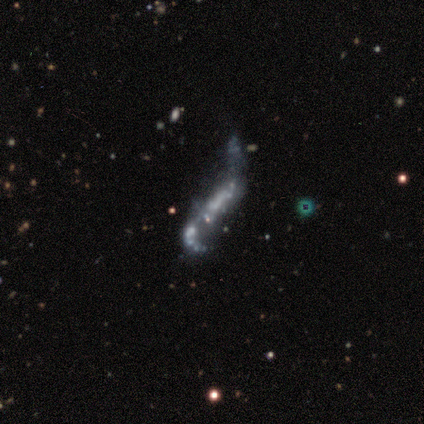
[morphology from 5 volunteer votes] Smooth or featured: featured or disk — 80% (smooth — 20%)
Edge-on disk: no — 100%
Bar: no — 50% (strong — 25%)
Spiral arms: yes — 50% (tied with no — 50%)
Spiral winding: loose — 100%
Spiral arm count: 2 — 100%
Bulge size: none — 75% (moderate — 25%)
Merging: minor disturbance — 60% (major disturbance — 40%)